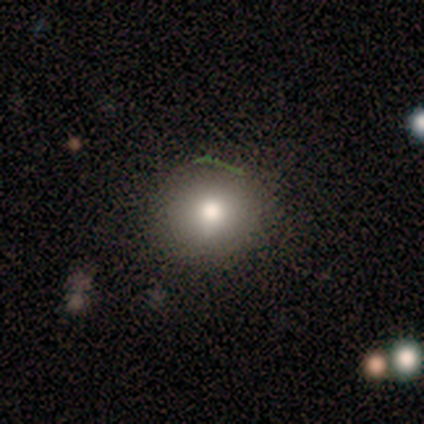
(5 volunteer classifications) Smooth or featured?
  - smooth: 100% *
  - featured or disk: 0%
  - star or artifact: 0%
How rounded?
  - round: 80% *
  - in between: 20%
  - cigar-shaped: 0%
Merging?
  - none: 100% *
  - minor disturbance: 0%
  - major disturbance: 0%
  - merger: 0%